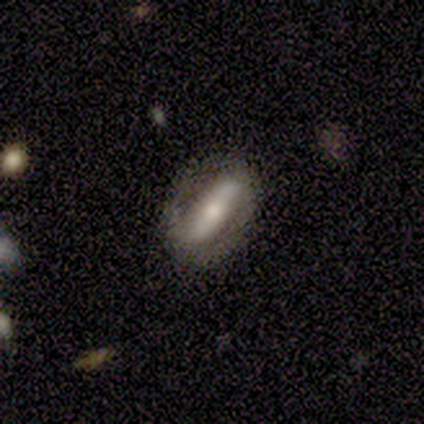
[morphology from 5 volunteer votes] Smooth or featured: featured or disk — 80% (star or artifact — 20%)
Edge-on disk: yes — 50% (tied with no — 50%)
Edge-on bulge: rounded — 100%
Merging: none — 75% (merger — 25%)